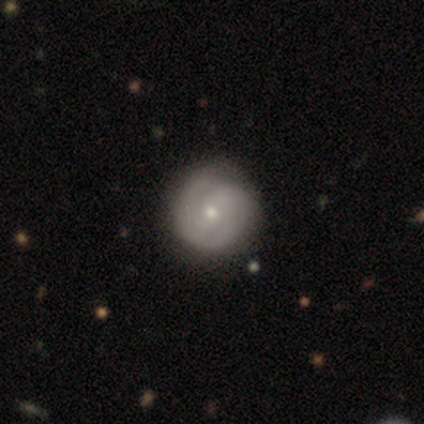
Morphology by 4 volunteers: A featured or disk galaxy (100%) with no bar (50%), 2 (100%) tight (100%) spiral arms (100%) and a small central bulge (75%). Merging: none (75%).